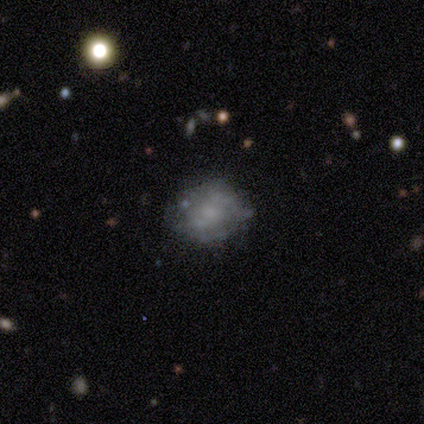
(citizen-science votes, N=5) Morphology: type=featured or disk (100%); edge-on=no (100%); bar=no (100%); spiral arms=no (100%); bulge=none (60%); merging=none (80%).